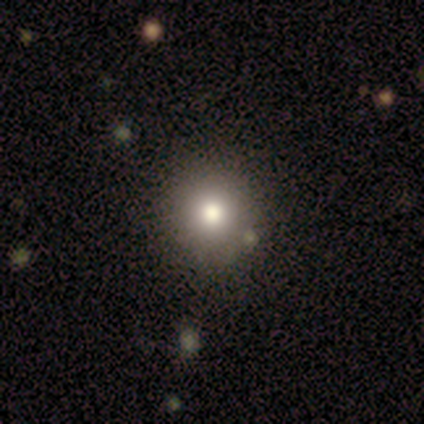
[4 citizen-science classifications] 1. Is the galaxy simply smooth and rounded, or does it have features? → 100% smooth, 0% featured or disk, 0% star or artifact.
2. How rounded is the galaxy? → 100% round, 0% in between, 0% cigar-shaped.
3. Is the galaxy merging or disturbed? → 100% none, 0% minor disturbance, 0% major disturbance, 0% merger.